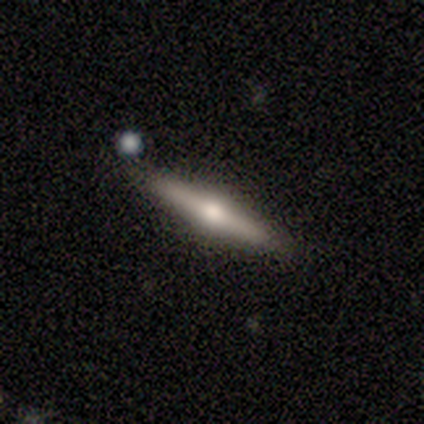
This is clearly a featured or disk galaxy (100%). It is clearly viewed edge-on (80%). Edge-on bulge: clearly rounded (100%). Merging: likely none (60%).